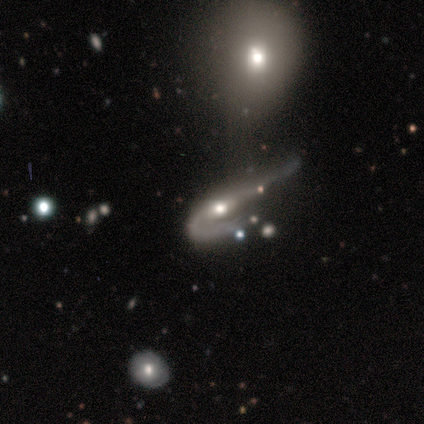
Volunteers were most divided on "bar": weak: 67%, no: 33%, strong: 0%. More confident: edge-on disk — no (100%); bulge size — moderate (100%); merging — major disturbance (75%); spiral arms — no (67%); smooth or featured — featured or disk (60%).